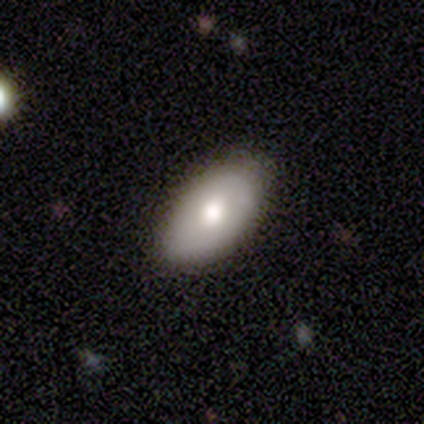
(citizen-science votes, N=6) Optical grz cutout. It shows a smooth galaxy with no disk features (83%) that is in between round and cigar-shaped (100%). Merging: none (100%).